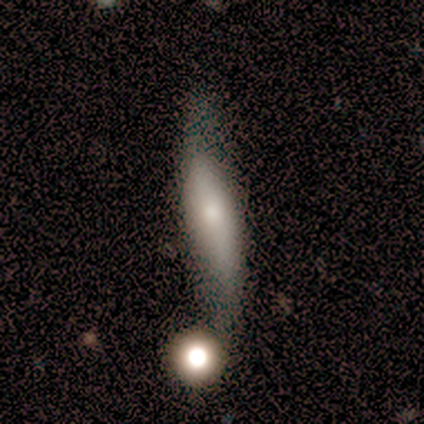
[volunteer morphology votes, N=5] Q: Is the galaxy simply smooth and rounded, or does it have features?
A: smooth — 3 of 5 (60%).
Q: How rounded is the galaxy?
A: cigar-shaped — 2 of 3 (67%).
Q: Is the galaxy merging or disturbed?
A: minor disturbance — 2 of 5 (40%).